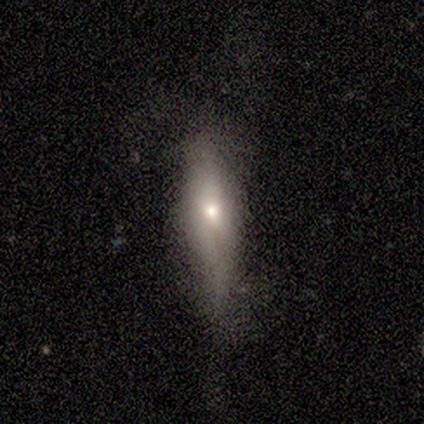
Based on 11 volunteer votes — A featured or disk galaxy (45%) with a weak bar (50%, tied with no), 2 (67%) loose (100%) spiral arms (75%) and a moderate central bulge (50%, tied with small). Merging: none (67%).